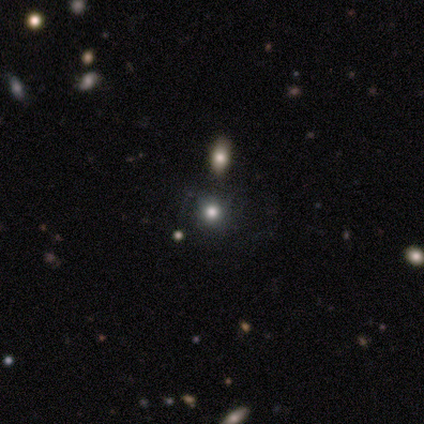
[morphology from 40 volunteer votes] Smooth or featured? 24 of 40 (60%) said smooth. How rounded? 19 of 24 (79%) said round. Merging? 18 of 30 (60%) said none.